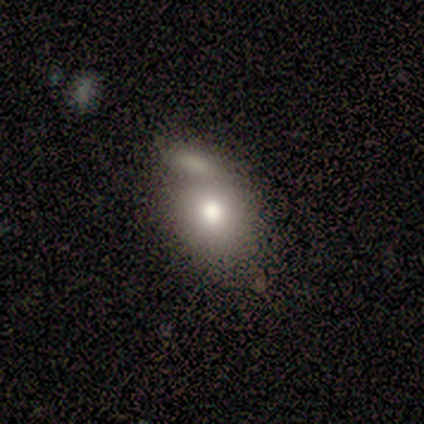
Smooth or featured?
  - smooth: 80% *
  - star or artifact: 20%
  - featured or disk: 0%
How rounded?
  - round: 50% * (tied)
  - in between: 50% * (tied)
  - cigar-shaped: 0%
Merging?
  - merger: 50% *
  - none: 25%
  - minor disturbance: 25%
  - major disturbance: 0%